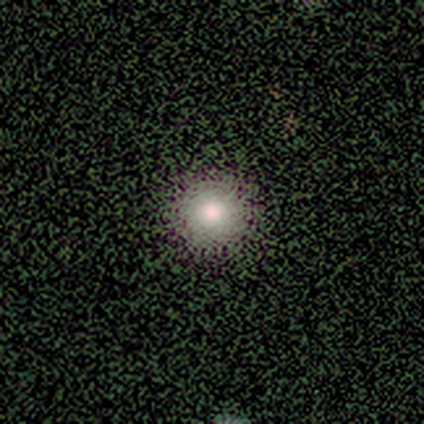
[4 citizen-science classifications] Smooth or featured? smooth (75%)
How rounded? round (100%)
Merging? none (75%)